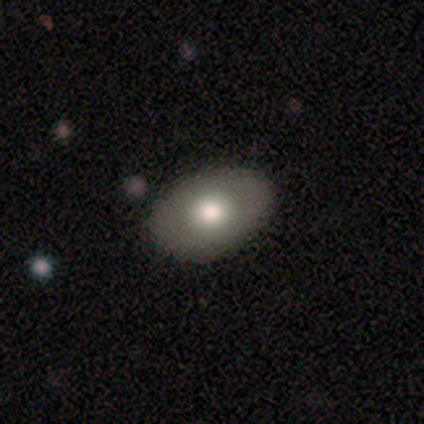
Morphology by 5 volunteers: Smooth or featured? smooth (60%)
How rounded? in between (67%)
Merging? none (60%)